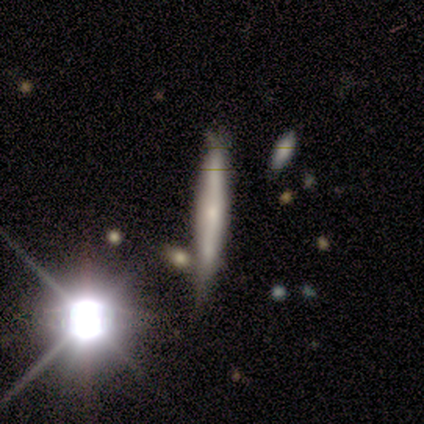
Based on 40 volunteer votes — smooth_or_featured: featured or disk (p=0.47) [alt: smooth p=0.38]
disk_edge_on: yes (p=1.00)
edge_on_bulge: none (p=0.42) [tied with: rounded p=0.42]
merging: none (p=0.29) [alt: merger p=0.24]